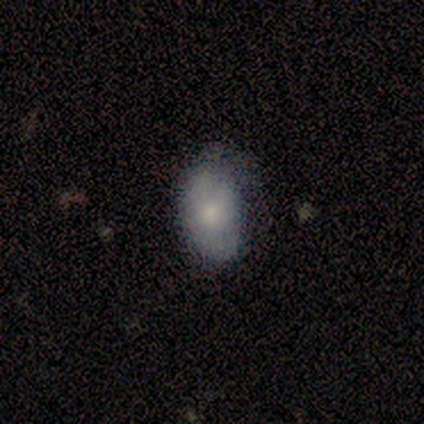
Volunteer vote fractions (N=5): This is likely a smooth galaxy (60%). How rounded: clearly in between (100%). Merging: likely none (60%).